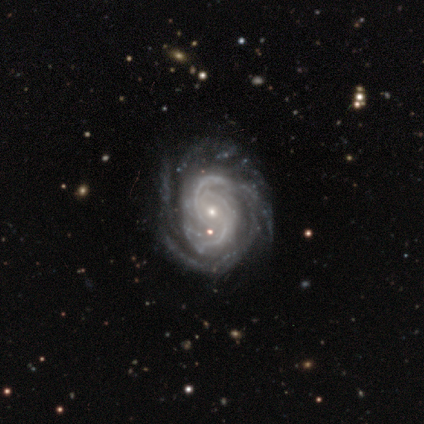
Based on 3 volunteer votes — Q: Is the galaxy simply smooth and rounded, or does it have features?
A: featured or disk — 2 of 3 (67%).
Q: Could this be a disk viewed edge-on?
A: no — 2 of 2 (100%).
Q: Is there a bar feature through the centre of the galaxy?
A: weak — 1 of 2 (50%, tied with no).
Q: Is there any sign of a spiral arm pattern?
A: yes — 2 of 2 (100%).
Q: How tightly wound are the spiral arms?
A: medium — 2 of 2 (100%).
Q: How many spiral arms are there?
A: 2 — 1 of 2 (50%, tied with can't tell).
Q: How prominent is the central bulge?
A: moderate — 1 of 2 (50%, tied with small).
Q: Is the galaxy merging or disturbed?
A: none — 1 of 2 (50%, tied with major disturbance).